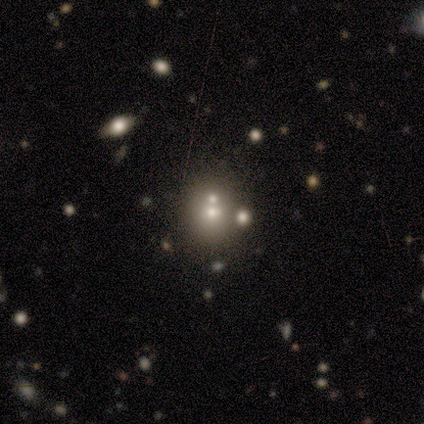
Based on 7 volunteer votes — smooth_or_featured: smooth (p=0.43) [alt: featured or disk p=0.29]
how_rounded: round (p=0.67) [alt: in between p=0.33]
merging: merger (p=0.80) [alt: minor disturbance p=0.20]